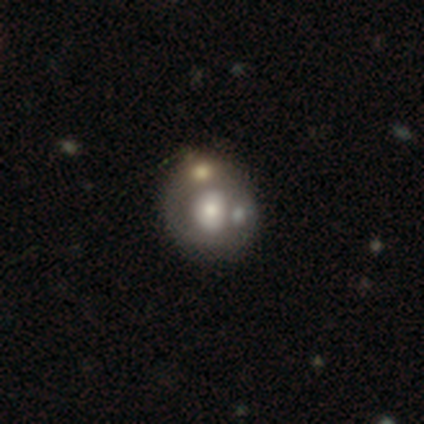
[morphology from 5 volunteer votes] type=smooth (40%, tied with featured or disk); roundness=round (50%, tied with in between); merging=none (100%).